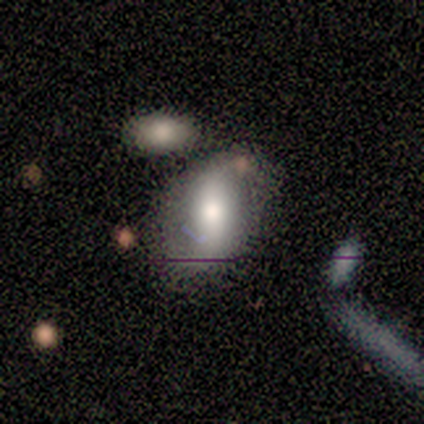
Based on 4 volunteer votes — Overall: smooth (75%). How rounded: in between (67%; round 33%). Merging: none (50%; major disturbance 25%).